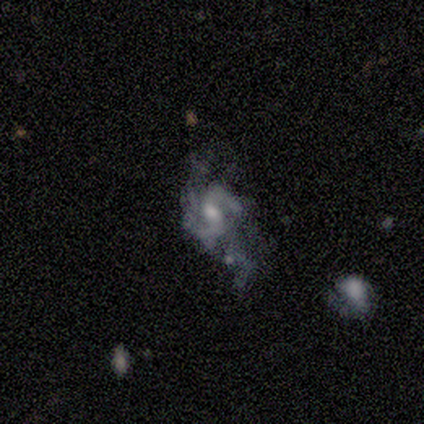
Morphology: type=featured or disk (80%); edge-on=no (100%); bar=weak (75%); spiral arms=yes (100%); winding=medium (75%); arm count=2 (75%); bulge=large (50%); merging=none (50%, tied with minor disturbance).